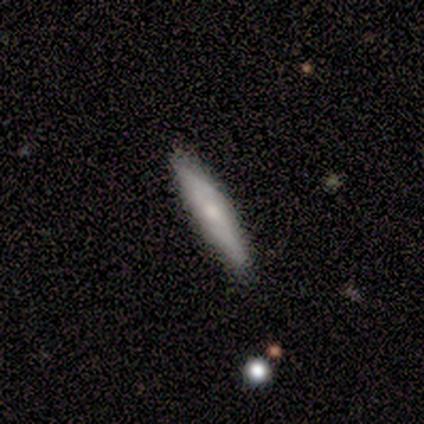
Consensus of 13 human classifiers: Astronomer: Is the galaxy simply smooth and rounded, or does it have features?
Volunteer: smooth — 46%, tied with featured or disk at 46%.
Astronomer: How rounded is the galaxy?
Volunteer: cigar-shaped — 67%.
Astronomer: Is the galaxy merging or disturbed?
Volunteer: none — 75%.